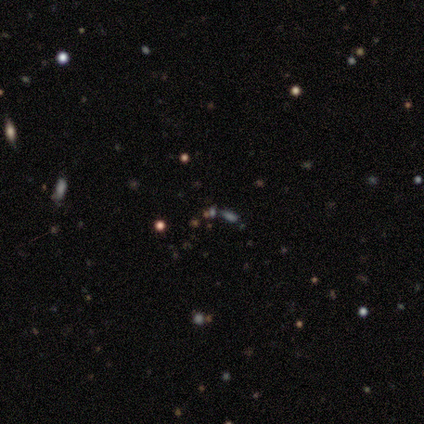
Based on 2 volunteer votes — This is clearly a star or artifact rather than a galaxy (100%).